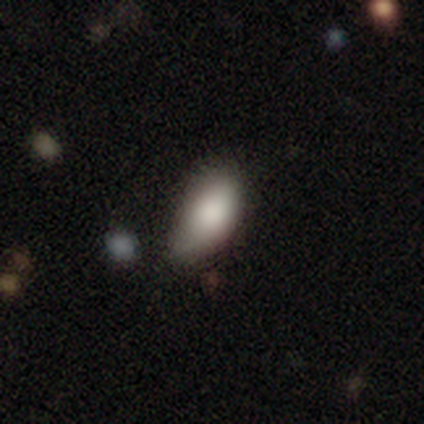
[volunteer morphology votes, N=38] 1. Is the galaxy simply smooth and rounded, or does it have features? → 79% smooth, 13% featured or disk, 8% star or artifact.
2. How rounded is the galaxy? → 100% in between, 0% round, 0% cigar-shaped.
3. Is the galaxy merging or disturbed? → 40% minor disturbance, 17% major disturbance, 14% none, 6% merger.